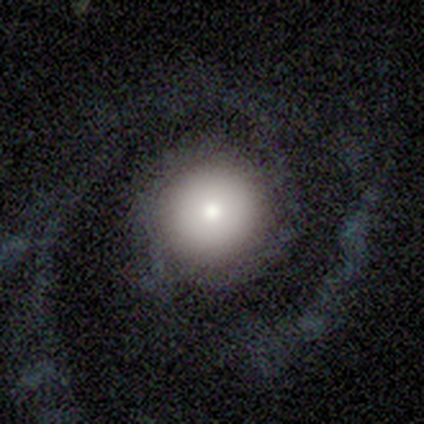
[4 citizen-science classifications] Smooth or featured? 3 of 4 (75%) said featured or disk. Edge-on disk? 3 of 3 (100%) said no. Bar? 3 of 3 (100%) said no. Spiral arms? 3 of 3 (100%) said yes. Spiral winding? 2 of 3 (67%) said medium. Spiral arm count? 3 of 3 (100%) said 2. Bulge size? 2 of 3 (67%) said moderate. Merging? 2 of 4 (50%, tied with major disturbance) said none.